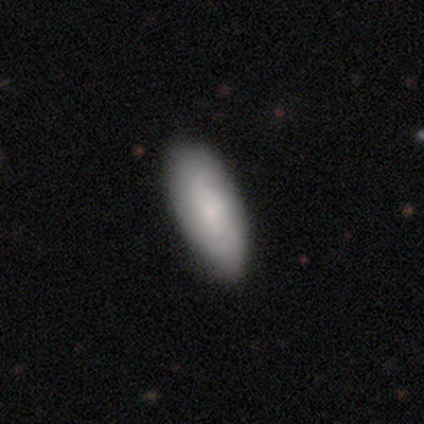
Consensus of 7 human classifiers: featured or disk 57%, smooth 43%, star or artifact 0%. Down the decision tree: edge-on disk — yes (50%, tied with no); edge-on bulge — boxy (50%, tied with none); merging — none (100%).